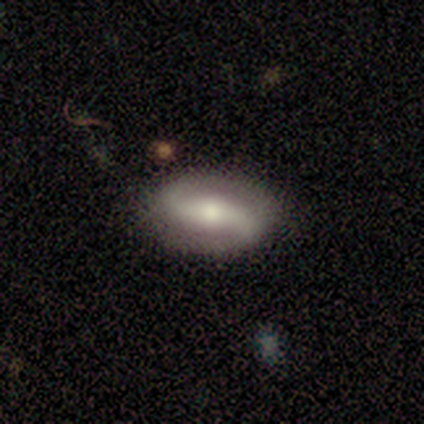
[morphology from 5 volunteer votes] Smooth or featured: featured or disk — 80% (smooth — 20%)
Edge-on disk: no — 75% (yes — 25%)
Bar: strong — 67% (no — 33%)
Spiral arms: yes — 67% (no — 33%)
Spiral winding: medium — 50% (tied with loose — 50%)
Spiral arm count: 2 — 100%
Bulge size: moderate — 100%
Merging: none — 80% (minor disturbance — 20%)